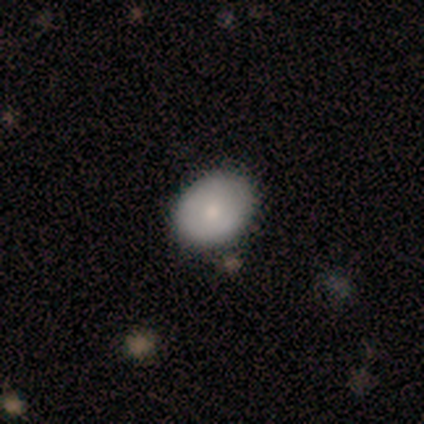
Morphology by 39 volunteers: Q: Smooth or featured?
A: smooth (69%); runner-up: featured or disk (28%)
Q: How rounded?
A: in between (74%); runner-up: round (22%)
Q: Merging?
A: none (68%); runner-up: minor disturbance (8%)